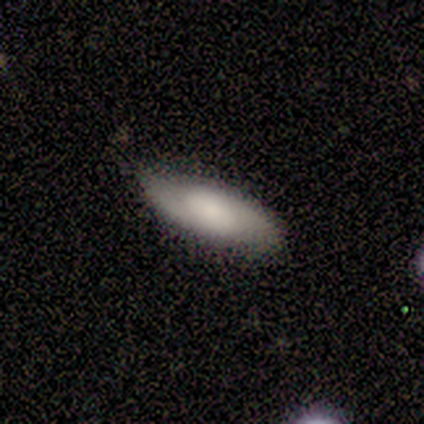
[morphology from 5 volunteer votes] Smooth or featured: smooth — 100%
How rounded: in between — 60% (cigar-shaped — 40%)
Merging: none — 80% (minor disturbance — 20%)